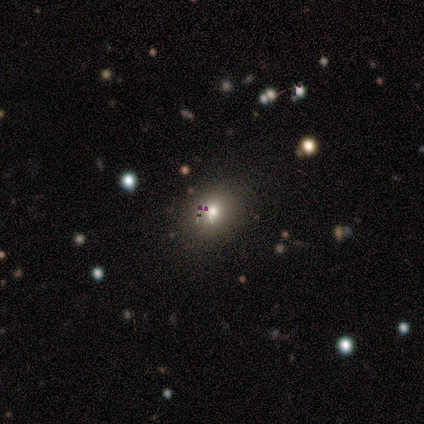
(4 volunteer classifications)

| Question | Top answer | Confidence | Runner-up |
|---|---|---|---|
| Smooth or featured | smooth | 100% | — |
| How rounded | round | 100% | — |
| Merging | none | 100% | — |